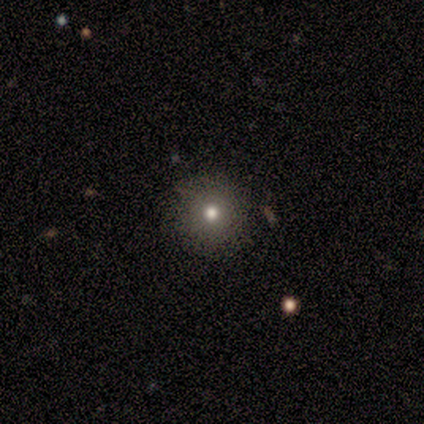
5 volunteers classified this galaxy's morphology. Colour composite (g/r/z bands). It shows a smooth galaxy with no disk features (80%) that is round (100%). Merging: none (100%).